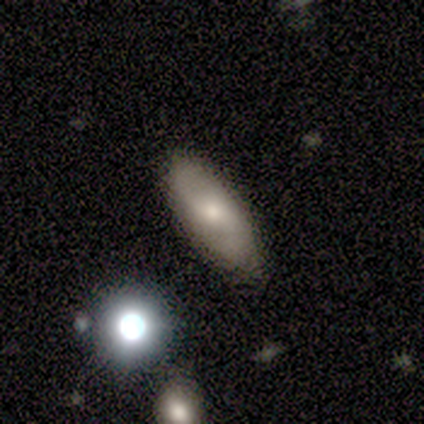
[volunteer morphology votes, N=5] type=smooth (60%); roundness=in between (100%); merging=none (80%).